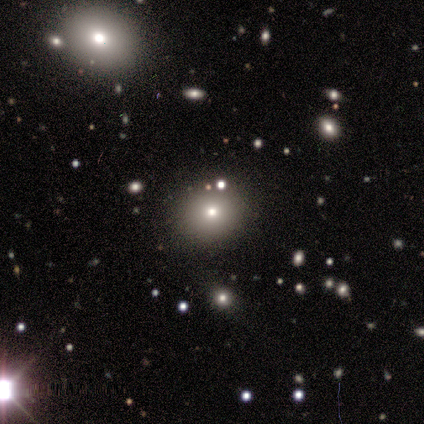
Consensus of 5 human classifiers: Smooth or featured?
  - smooth: 40% * (tied)
  - featured or disk: 40% * (tied)
  - star or artifact: 20%
How rounded?
  - round: 100% *
  - in between: 0%
  - cigar-shaped: 0%
Merging?
  - none: 100% *
  - minor disturbance: 0%
  - major disturbance: 0%
  - merger: 0%